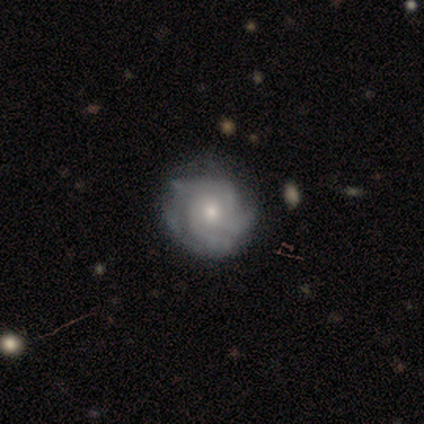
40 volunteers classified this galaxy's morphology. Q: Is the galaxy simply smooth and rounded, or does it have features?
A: featured or disk — 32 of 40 (80%).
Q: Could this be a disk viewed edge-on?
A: no — 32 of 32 (100%).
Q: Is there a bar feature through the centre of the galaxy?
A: no — 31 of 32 (97%).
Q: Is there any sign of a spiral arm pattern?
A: yes — 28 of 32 (88%).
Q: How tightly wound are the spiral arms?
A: tight — 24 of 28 (86%).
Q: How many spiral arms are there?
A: can't tell — 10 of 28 (36%).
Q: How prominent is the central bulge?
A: small — 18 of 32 (56%).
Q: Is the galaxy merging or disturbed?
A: none — 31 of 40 (78%).